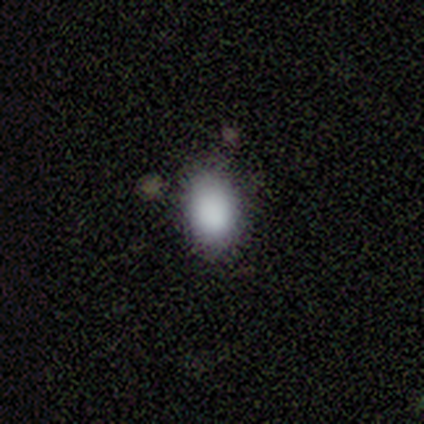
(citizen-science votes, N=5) A smooth galaxy with no disk features (80%) that is in between round and cigar-shaped (100%). Merging: none (100%).